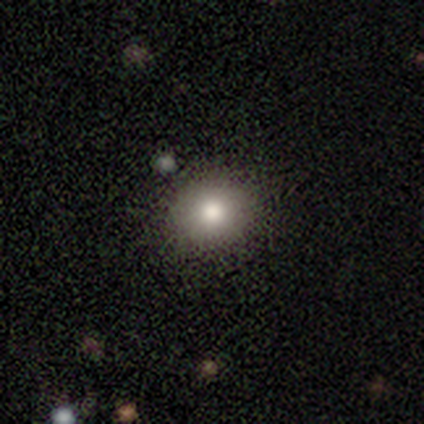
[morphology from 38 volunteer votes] Overall: smooth (71%). How rounded: round (70%). Merging: none (91%).